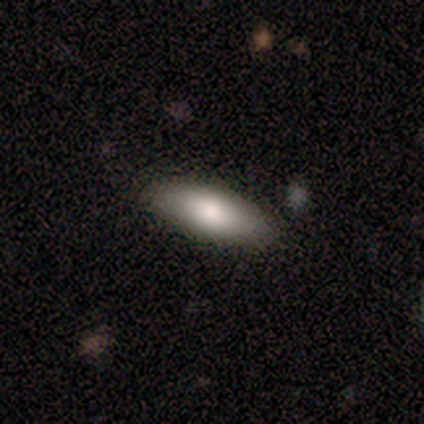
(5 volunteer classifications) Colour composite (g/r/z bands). It shows a smooth galaxy with no disk features (80%) that is in between round and cigar-shaped (75%). Merging: none (100%).